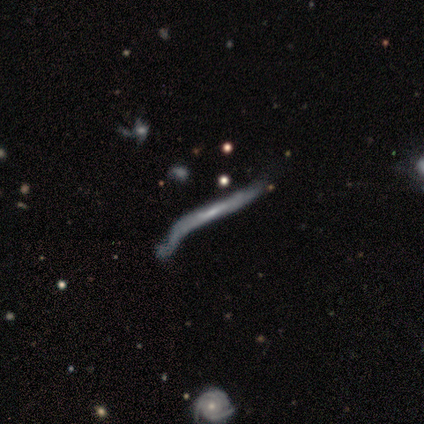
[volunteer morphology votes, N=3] A smooth galaxy with no disk features (67%) that is cigar-shaped (100%).

Vote fractions:
- Smooth or featured? smooth: 67% / featured or disk: 33% / star or artifact: 0%
- How rounded? cigar-shaped: 100% / round: 0% / in between: 0%
- Merging? none: 33% (tied) / minor disturbance: 33% (tied) / merger: 33% (tied) / major disturbance: 0%